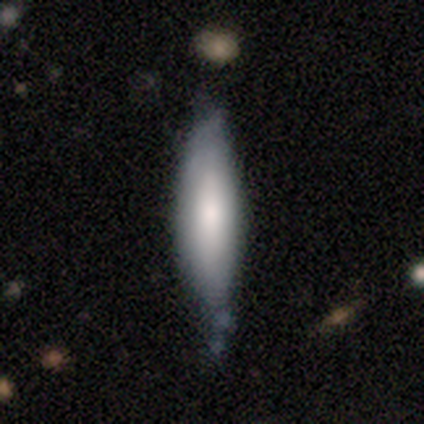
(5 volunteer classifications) Morphology: type=smooth (80%); roundness=in between (75%); merging=none (50%, tied with minor disturbance).